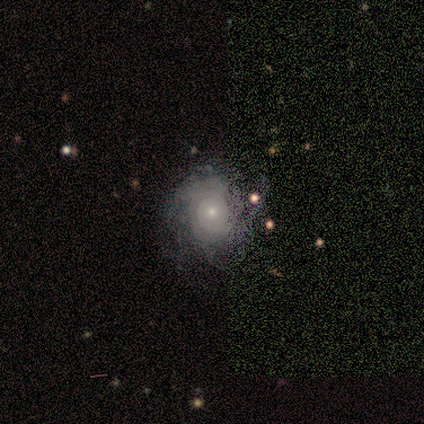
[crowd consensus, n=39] Smooth or featured: featured or disk — 90% (smooth — 5%)
Edge-on disk: no — 97% (yes — 3%)
Bar: no — 97% (weak — 3%)
Spiral arms: yes — 88% (no — 12%)
Spiral winding: tight — 77% (medium — 23%)
Spiral arm count: can't tell — 63% (3 — 13%)
Bulge size: small — 79% (moderate — 12%)
Merging: none — 51% (minor disturbance — 30%)